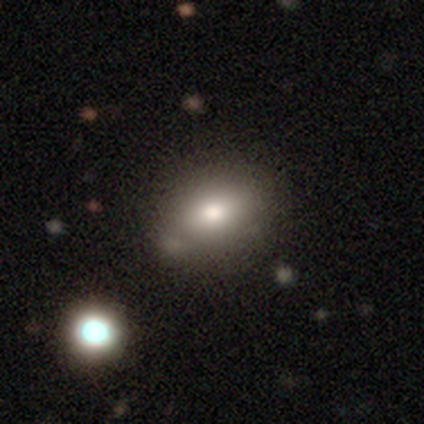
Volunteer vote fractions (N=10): Overall: smooth (80%). How rounded: in between (88%). Merging: none (62%; minor disturbance 38%).